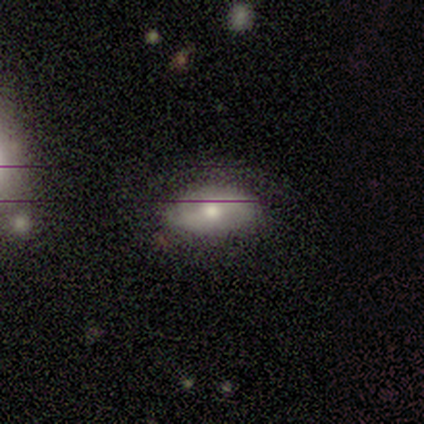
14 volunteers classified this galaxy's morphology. Overall: smooth (64%; featured or disk 36%). How rounded: in between (78%). Merging: minor disturbance (50%; none 43%).